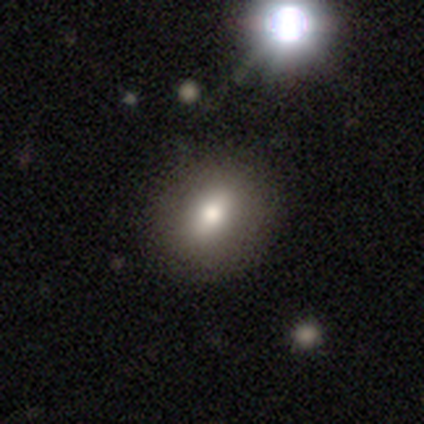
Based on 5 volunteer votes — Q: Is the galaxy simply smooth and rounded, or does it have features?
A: smooth — 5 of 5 (100%).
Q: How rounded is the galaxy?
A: in between — 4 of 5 (80%).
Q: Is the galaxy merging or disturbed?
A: none — 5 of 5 (100%).